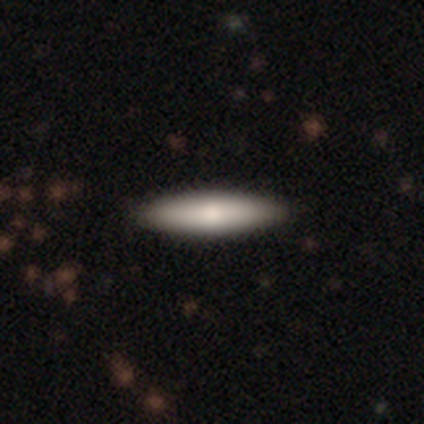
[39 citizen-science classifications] Smooth or featured? 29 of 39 (74%) said smooth. How rounded? 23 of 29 (79%) said cigar-shaped. Merging? 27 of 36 (75%) said none.